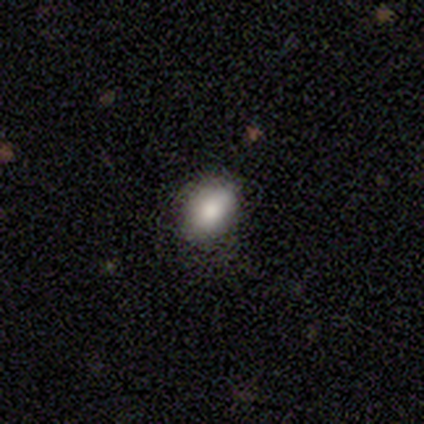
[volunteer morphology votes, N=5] A smooth galaxy with no disk features (100%) that is in between round and cigar-shaped (80%).

Vote fractions:
- Smooth or featured? smooth: 100% / featured or disk: 0% / star or artifact: 0%
- How rounded? in between: 80% / round: 20% / cigar-shaped: 0%
- Merging? none: 60% / minor disturbance: 40% / major disturbance: 0% / merger: 0%